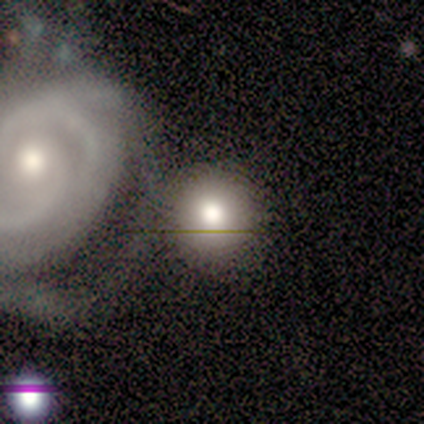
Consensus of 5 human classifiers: This appears to be a smooth galaxy with no disk features (80%) that is round (100%). Merging: merger (60%).